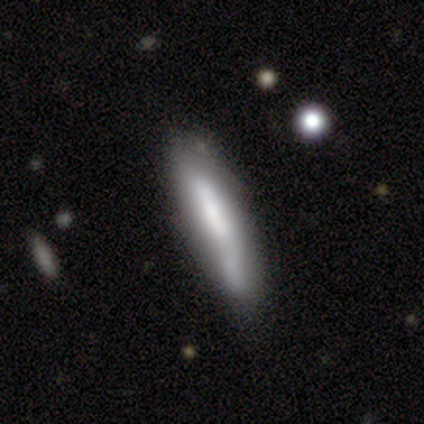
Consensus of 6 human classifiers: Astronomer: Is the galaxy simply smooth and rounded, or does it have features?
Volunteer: featured or disk — 50% (runner-up: smooth, 33%).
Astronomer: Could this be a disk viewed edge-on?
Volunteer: yes — 67%.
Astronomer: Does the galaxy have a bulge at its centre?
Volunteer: boxy — 50%, tied with rounded at 50%.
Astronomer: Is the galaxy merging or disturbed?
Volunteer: none — 60%.